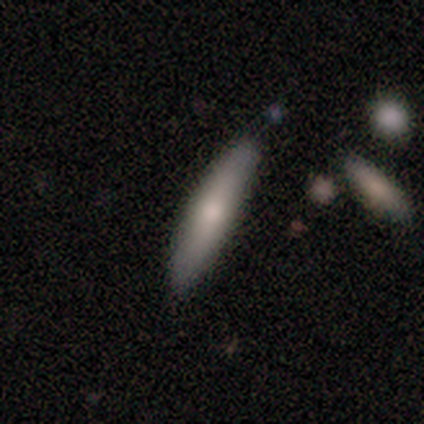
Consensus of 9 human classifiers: Smooth or featured?
  - smooth: 78% *
  - featured or disk: 11%
  - star or artifact: 11%
How rounded?
  - cigar-shaped: 86% *
  - in between: 14%
  - round: 0%
Merging?
  - none: 75% *
  - minor disturbance: 25%
  - major disturbance: 0%
  - merger: 0%